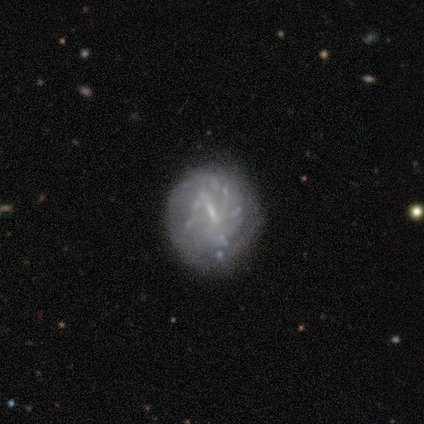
A featured or disk galaxy (100%) with a strong bar (50%, tied with weak), 2 (67%) tight (100%) spiral arms (75%) and a small central bulge (75%).

Vote fractions:
- Smooth or featured? featured or disk: 100% / smooth: 0% / star or artifact: 0%
- Edge-on disk? no: 100% / yes: 0%
- Bar? strong: 50% (tied) / weak: 50% (tied) / no: 0%
- Spiral arms? yes: 75% / no: 25%
- Spiral winding? tight: 100% / medium: 0% / loose: 0%
- Spiral arm count? 2: 67% / can't tell: 33% / 1: 0% / 3: 0% / 4: 0% / more than 4: 0%
- Bulge size? small: 75% / none: 25% / dominant: 0% / large: 0% / moderate: 0%
- Merging? none: 100% / minor disturbance: 0% / major disturbance: 0% / merger: 0%